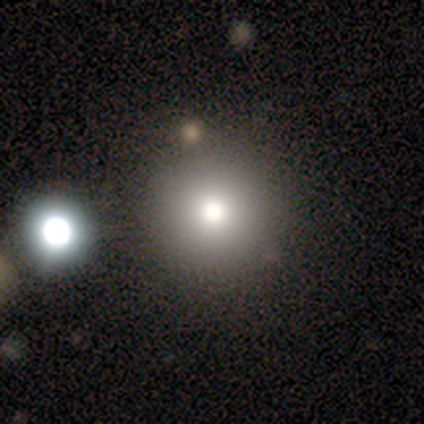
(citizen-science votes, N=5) A smooth galaxy with no disk features (60%) that is round (100%). Merging: none (100%).